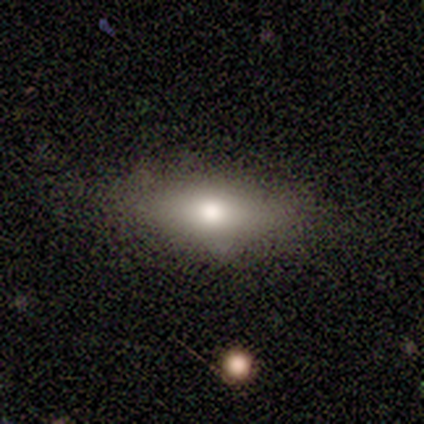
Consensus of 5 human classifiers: A smooth galaxy with no disk features (60%) that is in between round and cigar-shaped (100%). Merging: none (100%).